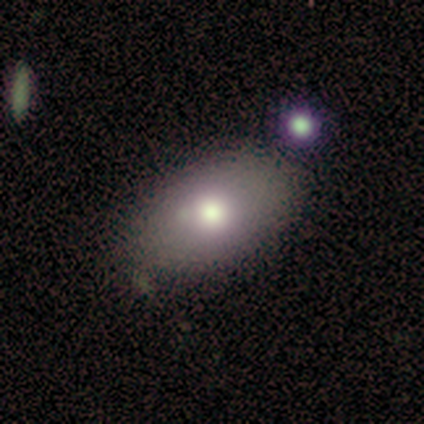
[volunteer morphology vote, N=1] Smooth or featured? 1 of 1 (100%) said smooth. How rounded? 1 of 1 (100%) said in between. Merging? 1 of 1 (100%) said minor disturbance.